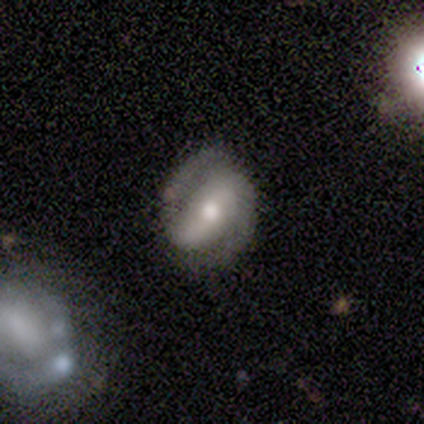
Smooth or featured: featured or disk — 75% (smooth — 25%)
Edge-on disk: no — 67% (yes — 33%)
Bar: no — 100%
Spiral arms: yes — 100%
Spiral winding: medium — 100%
Spiral arm count: 1 — 50% (tied with 2 — 50%)
Bulge size: small — 50% (tied with none — 50%)
Merging: none — 25% (tied with minor disturbance — 25%; major disturbance — 25%; merger — 25%)